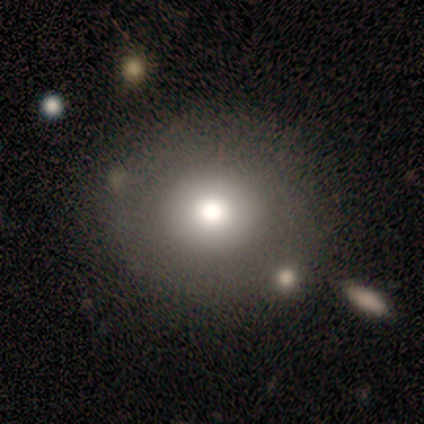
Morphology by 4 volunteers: Smooth or featured? 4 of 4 (100%) said smooth. How rounded? 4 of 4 (100%) said round. Merging? 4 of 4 (100%) said none.